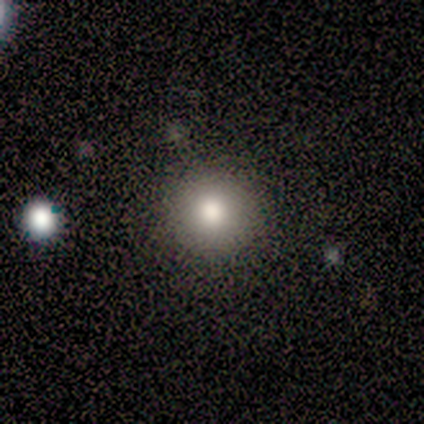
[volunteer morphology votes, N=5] Smooth or featured? 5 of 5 (100%) said smooth. How rounded? 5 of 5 (100%) said round. Merging? 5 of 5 (100%) said none.